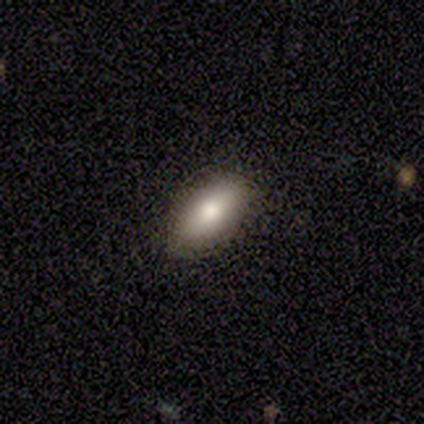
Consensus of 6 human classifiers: Volunteers were most divided on "smooth or featured": smooth: 67%, featured or disk: 17%, star or artifact: 17%. More confident: how rounded — in between (100%); merging — none (80%).